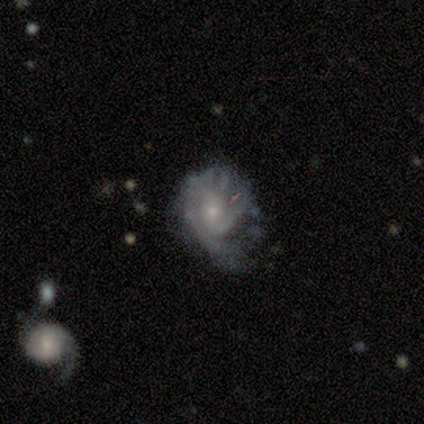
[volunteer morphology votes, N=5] Smooth or featured? 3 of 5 (60%) said featured or disk. Edge-on disk? 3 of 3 (100%) said no. Bar? 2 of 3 (67%) said no. Spiral arms? 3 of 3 (100%) said yes. Spiral winding? 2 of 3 (67%) said tight. Spiral arm count? 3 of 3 (100%) said 2. Bulge size? 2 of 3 (67%) said moderate. Merging? 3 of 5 (60%) said minor disturbance.